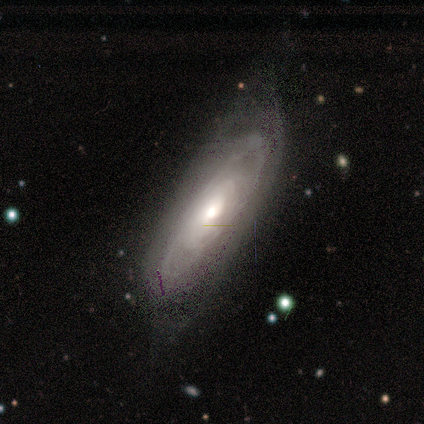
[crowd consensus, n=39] Smooth or featured?
  - featured or disk: 82% *
  - smooth: 18%
  - star or artifact: 0%
Edge-on disk?
  - no: 72% *
  - yes: 28%
Bar?
  - no: 61% *
  - weak: 30%
  - strong: 9%
Spiral arms?
  - yes: 78% *
  - no: 22%
Spiral winding?
  - tight: 50% *
  - medium: 28%
  - loose: 22%
Spiral arm count?
  - can't tell: 67% *
  - 2: 17%
  - 3: 11%
  - more than 4: 6%
  - 1: 0%
  - 4: 0%
Bulge size?
  - moderate: 70% *
  - large: 17%
  - small: 9%
  - dominant: 4%
  - none: 0%
Merging?
  - none: 54% *
  - minor disturbance: 36%
  - major disturbance: 10%
  - merger: 0%